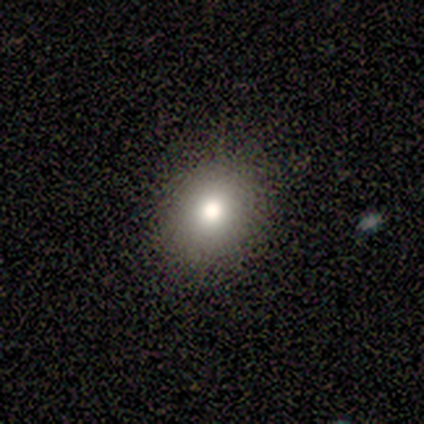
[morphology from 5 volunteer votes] Smooth or featured?
  - smooth: 100% *
  - featured or disk: 0%
  - star or artifact: 0%
How rounded?
  - round: 60% *
  - in between: 40%
  - cigar-shaped: 0%
Merging?
  - none: 60% *
  - minor disturbance: 20%
  - major disturbance: 20%
  - merger: 0%